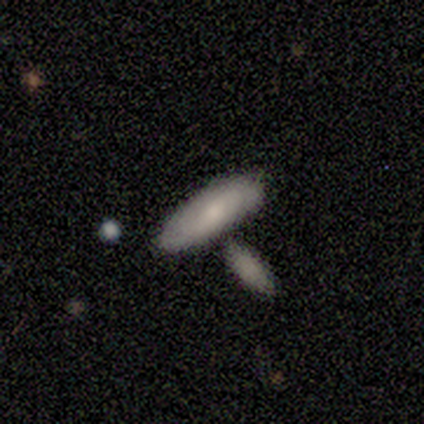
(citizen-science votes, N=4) smooth-or-featured: smooth: 50% (tied) | featured or disk: 50% (tied) | star or artifact: 0%
  how-rounded: round: 50% (tied) | cigar-shaped: 50% (tied) | in between: 0%
  merging: none: 50% (tied) | merger: 50% (tied) | minor disturbance: 0% | major disturbance: 0%